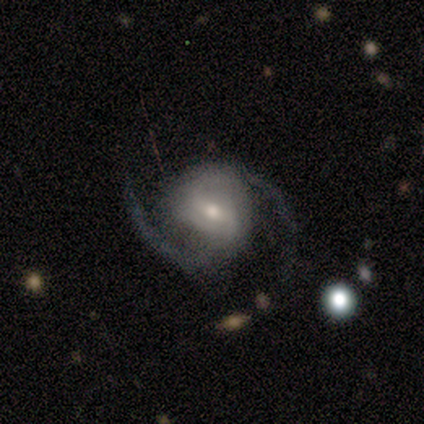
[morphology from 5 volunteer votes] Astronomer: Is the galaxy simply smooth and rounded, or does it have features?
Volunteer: featured or disk — 80%.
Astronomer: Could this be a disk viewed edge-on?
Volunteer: no — 100%.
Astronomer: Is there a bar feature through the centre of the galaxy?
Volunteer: weak — 75%.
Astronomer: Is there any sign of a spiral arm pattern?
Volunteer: yes — 100%.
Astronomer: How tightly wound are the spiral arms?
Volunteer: medium — 75%.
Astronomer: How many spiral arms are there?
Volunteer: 2 — 100%.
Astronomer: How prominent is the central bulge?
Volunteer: moderate — 50%, tied with small at 50%.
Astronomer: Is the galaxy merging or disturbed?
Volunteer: none — 100%.